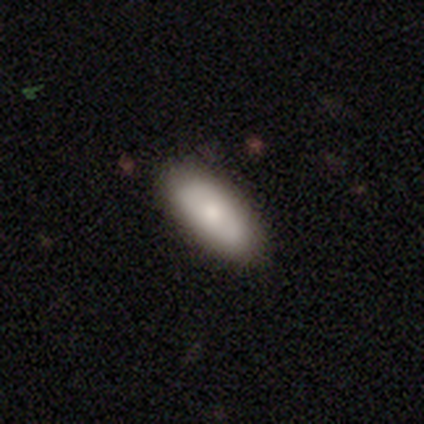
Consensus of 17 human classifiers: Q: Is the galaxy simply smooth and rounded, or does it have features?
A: smooth — 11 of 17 (65%).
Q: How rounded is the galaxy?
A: in between — 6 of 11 (55%).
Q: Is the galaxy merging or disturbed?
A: none — 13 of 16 (81%).